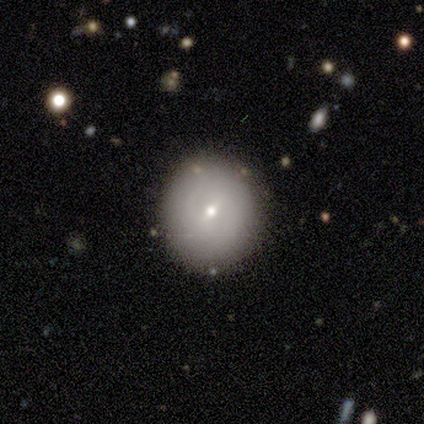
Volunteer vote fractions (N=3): smooth-or-featured: smooth: 67% | featured or disk: 33% | star or artifact: 0%
  how-rounded: round: 100% | in between: 0% | cigar-shaped: 0%
  merging: none: 100% | minor disturbance: 0% | major disturbance: 0% | merger: 0%